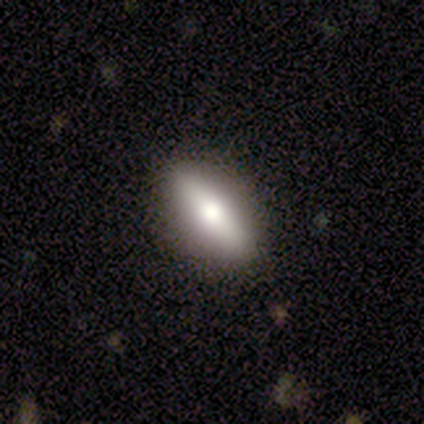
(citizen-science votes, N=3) Overall: smooth (33%, tied with featured or disk and star or artifact). How rounded: in between (100%). Merging: none (100%).